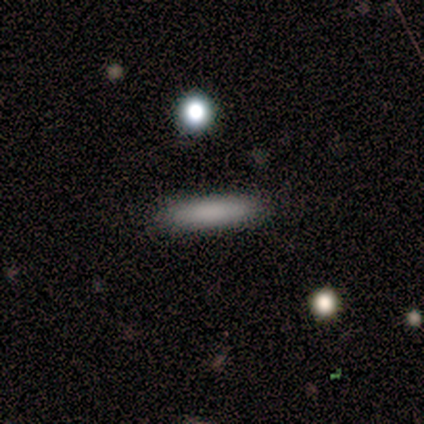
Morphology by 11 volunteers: type=smooth (55%); roundness=cigar-shaped (100%); merging=none (89%).